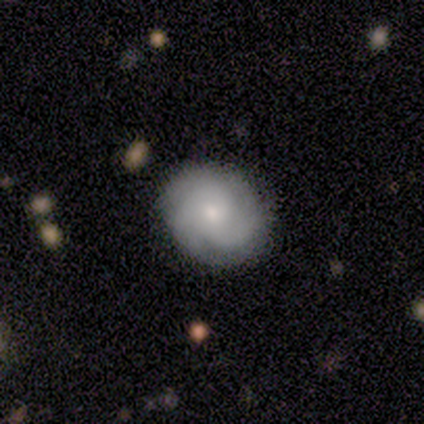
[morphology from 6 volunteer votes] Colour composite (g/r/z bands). It shows a featured or disk galaxy (83%) with no bar (80%), 3 (100%) tight (80%) spiral arms (100%) and a moderate central bulge (80%). Merging: none (100%).